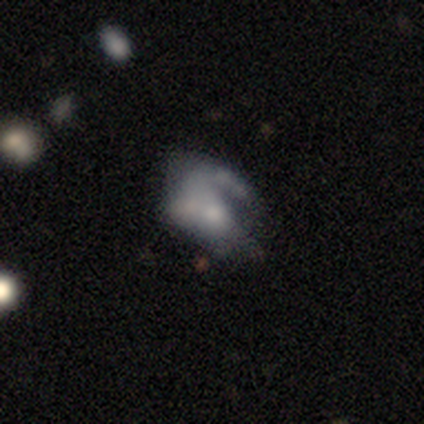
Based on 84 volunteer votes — Smooth or featured? featured or disk (58%)
Edge-on disk? no (98%)
Bar? no (85%)
Spiral arms? no (62%)
Bulge size? small (40%)
Merging? major disturbance (37%)